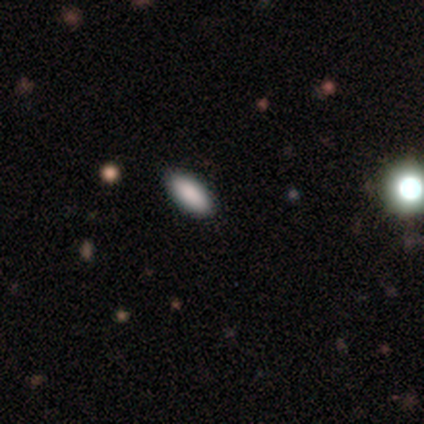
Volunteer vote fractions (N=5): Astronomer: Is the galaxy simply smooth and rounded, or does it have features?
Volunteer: smooth — 100%.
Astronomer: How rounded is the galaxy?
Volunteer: in between — 100%.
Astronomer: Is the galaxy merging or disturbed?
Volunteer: none — 100%.